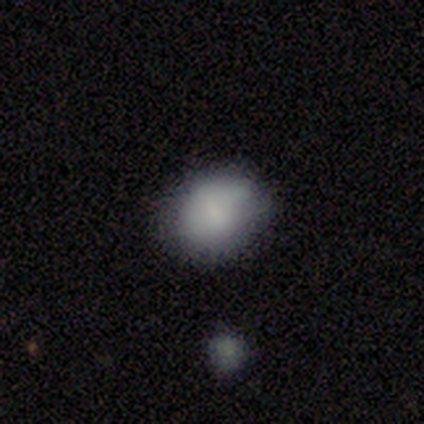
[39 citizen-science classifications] This is likely a smooth galaxy (77%). How rounded: likely in between (60%). Merging: likely none (76%).